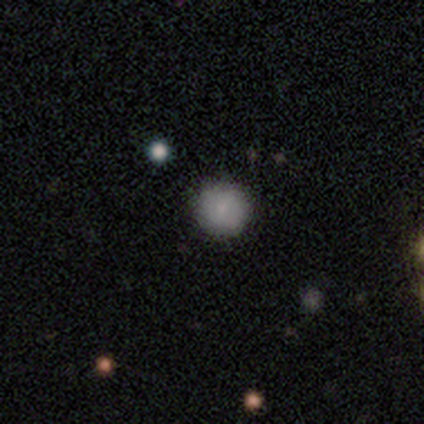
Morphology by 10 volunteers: Volunteers were most divided on "smooth or featured": smooth: 70%, star or artifact: 20%, featured or disk: 10%. More confident: how rounded — round (86%); merging — none (75%).